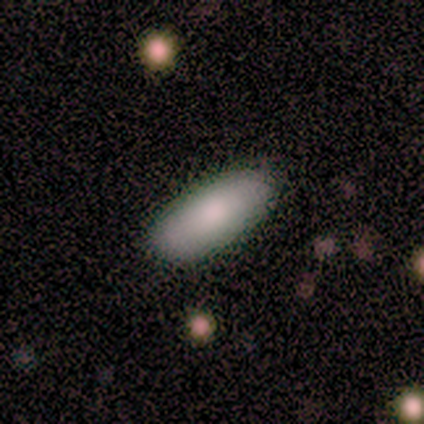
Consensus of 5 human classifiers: A smooth galaxy with no disk features (100%) that is in between round and cigar-shaped (100%).

Vote fractions:
- Smooth or featured? smooth: 100% / featured or disk: 0% / star or artifact: 0%
- How rounded? in between: 100% / round: 0% / cigar-shaped: 0%
- Merging? none: 100% / minor disturbance: 0% / major disturbance: 0% / merger: 0%